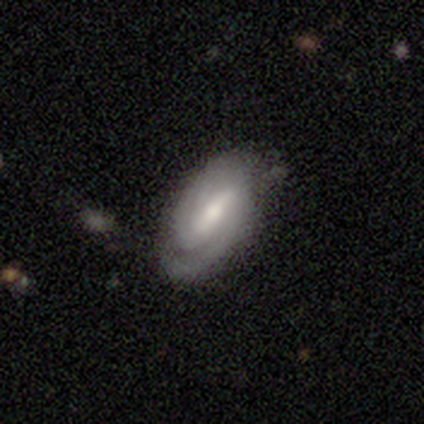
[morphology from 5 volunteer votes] smooth_or_featured: featured or disk (p=0.80) [alt: star or artifact p=0.20]
disk_edge_on: no (p=1.00)
bar: strong (p=0.50) [alt: weak p=0.25]
has_spiral_arms: yes (p=1.00)
spiral_winding: tight (p=0.50) [tied with: medium p=0.50]
spiral_arm_count: 2 (p=0.50) [tied with: 3 p=0.50]
bulge_size: moderate (p=0.75) [alt: small p=0.25]
merging: none (p=0.75) [alt: major disturbance p=0.25]